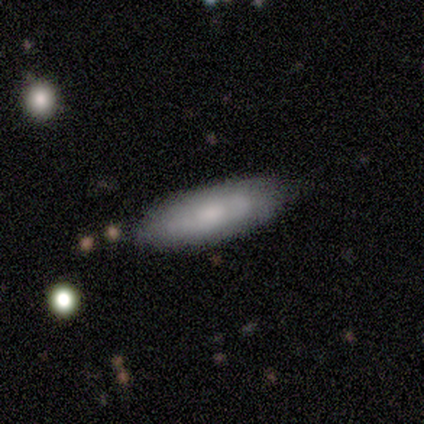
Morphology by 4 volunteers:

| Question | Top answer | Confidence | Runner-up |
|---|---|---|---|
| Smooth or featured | smooth | 100% | — |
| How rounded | in between | 75% | cigar-shaped (25%) |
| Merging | none | 75% | minor disturbance (25%) |